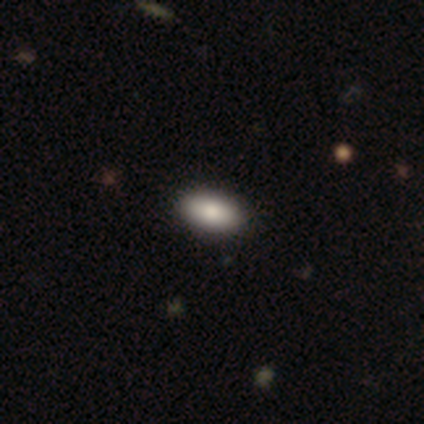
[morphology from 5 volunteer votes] Smooth or featured: smooth — 100%
How rounded: in between — 100%
Merging: none — 100%